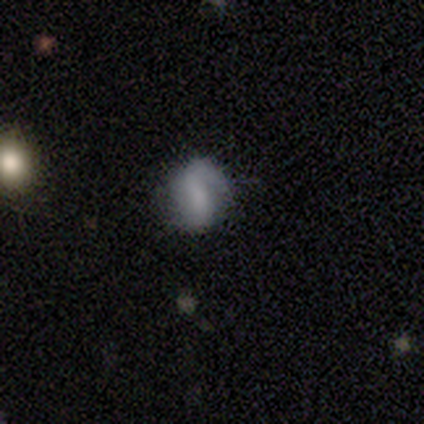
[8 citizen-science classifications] smooth-or-featured: smooth: 50% | featured or disk: 25% | star or artifact: 25%
  how-rounded: round: 50% (tied) | in between: 50% (tied) | cigar-shaped: 0%
  merging: none: 50% | minor disturbance: 33% | major disturbance: 17% | merger: 0%